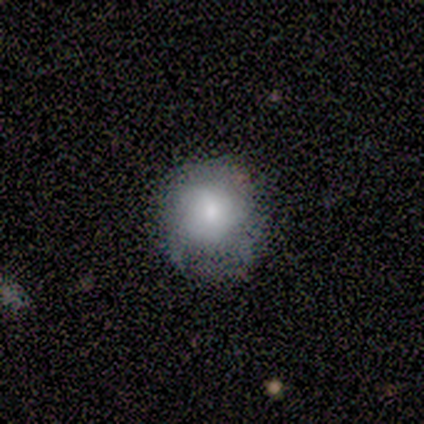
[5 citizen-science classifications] This appears to be a smooth galaxy with no disk features (100%) that is round (80%). Merging: minor disturbance (60%).